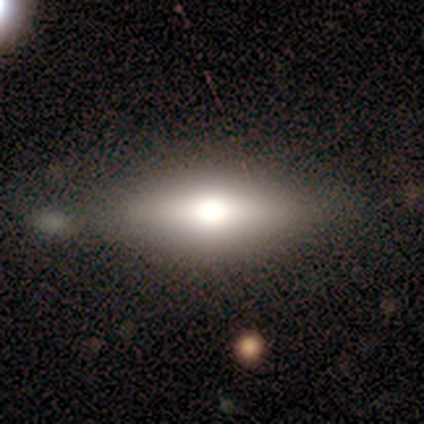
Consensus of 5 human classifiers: Smooth or featured?
  - featured or disk: 60% *
  - smooth: 20%
  - star or artifact: 20%
Edge-on disk?
  - yes: 100% *
  - no: 0%
Edge-on bulge?
  - rounded: 100% *
  - boxy: 0%
  - none: 0%
Merging?
  - none: 100% *
  - minor disturbance: 0%
  - major disturbance: 0%
  - merger: 0%